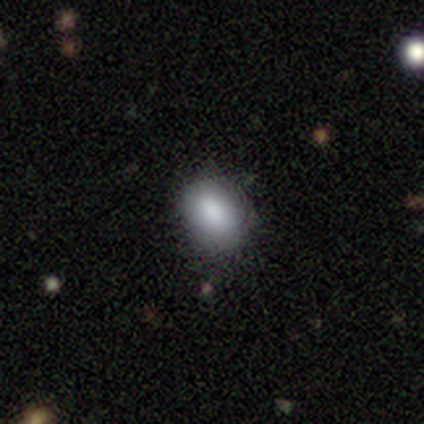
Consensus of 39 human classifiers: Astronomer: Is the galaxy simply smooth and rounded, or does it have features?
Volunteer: smooth — 87%.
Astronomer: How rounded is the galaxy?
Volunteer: in between — 68%.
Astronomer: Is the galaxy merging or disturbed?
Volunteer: none — 81%.